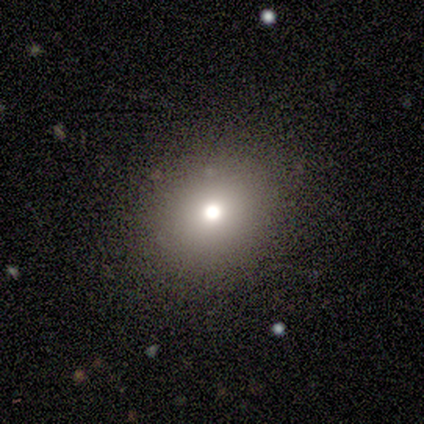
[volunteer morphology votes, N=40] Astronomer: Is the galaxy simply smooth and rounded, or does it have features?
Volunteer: smooth — 75%.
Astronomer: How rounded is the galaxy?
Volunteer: round — 73%.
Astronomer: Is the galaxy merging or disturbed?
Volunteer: none — 89%.